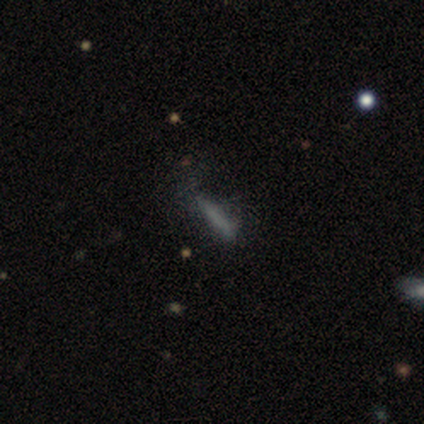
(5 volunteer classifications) Smooth or featured: smooth — 60% (star or artifact — 40%)
How rounded: cigar-shaped — 67% (in between — 33%)
Merging: none — 33% (tied with minor disturbance — 33%; major disturbance — 33%)